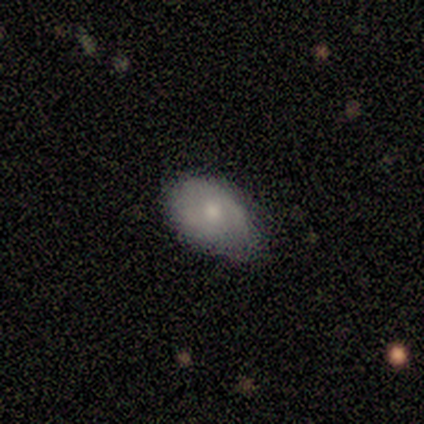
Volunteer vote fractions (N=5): smooth_or_featured: smooth (p=0.60) [alt: featured or disk p=0.40]
how_rounded: in between (p=1.00)
merging: none (p=0.60) [alt: minor disturbance p=0.40]